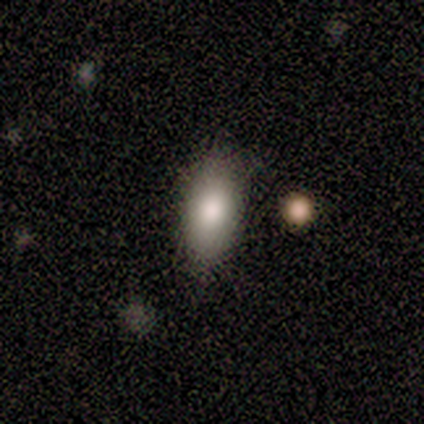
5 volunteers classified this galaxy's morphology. Smooth or featured?
  - smooth: 100% *
  - featured or disk: 0%
  - star or artifact: 0%
How rounded?
  - in between: 100% *
  - round: 0%
  - cigar-shaped: 0%
Merging?
  - none: 60% *
  - minor disturbance: 40%
  - major disturbance: 0%
  - merger: 0%